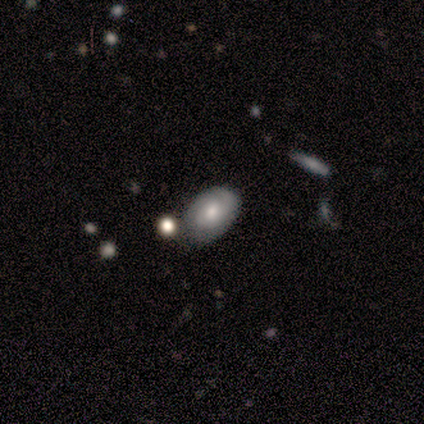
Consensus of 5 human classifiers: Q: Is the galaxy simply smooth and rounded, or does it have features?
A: smooth — 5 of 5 (100%).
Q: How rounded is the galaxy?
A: in between — 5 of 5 (100%).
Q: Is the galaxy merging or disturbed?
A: none — 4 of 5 (80%).